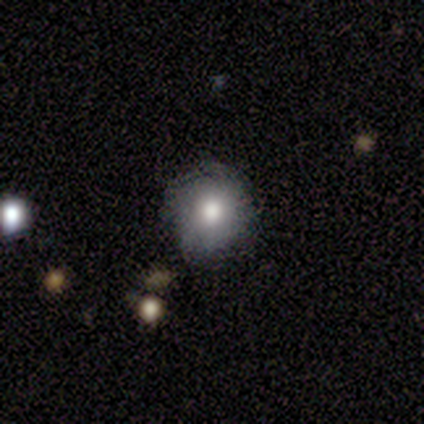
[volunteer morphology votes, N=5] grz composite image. It shows a smooth galaxy with no disk features (60%) that is round (67%). Merging: none (75%).